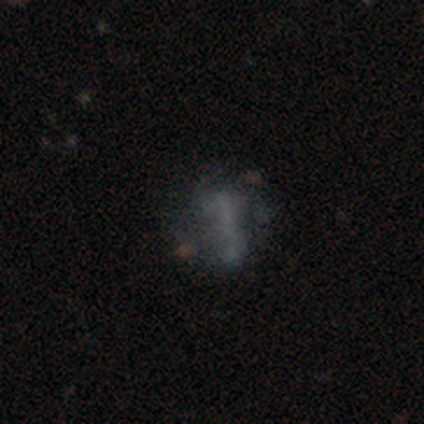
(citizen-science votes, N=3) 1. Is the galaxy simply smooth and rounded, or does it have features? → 67% smooth, 33% featured or disk, 0% star or artifact.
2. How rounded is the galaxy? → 50% round (tied), 50% cigar-shaped (tied), 0% in between.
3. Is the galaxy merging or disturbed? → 67% major disturbance, 33% none, 0% minor disturbance, 0% merger.